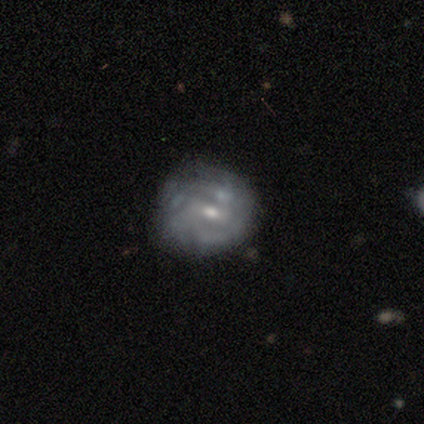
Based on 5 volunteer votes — Smooth or featured?
  - featured or disk: 60% *
  - smooth: 40%
  - star or artifact: 0%
Edge-on disk?
  - no: 100% *
  - yes: 0%
Bar?
  - weak: 67% *
  - strong: 33%
  - no: 0%
Spiral arms?
  - yes: 100% *
  - no: 0%
Spiral winding?
  - tight: 67% *
  - medium: 33%
  - loose: 0%
Spiral arm count?
  - can't tell: 67% *
  - 3: 33%
  - 1: 0%
  - 2: 0%
  - 4: 0%
  - more than 4: 0%
Bulge size?
  - small: 100% *
  - dominant: 0%
  - large: 0%
  - moderate: 0%
  - none: 0%
Merging?
  - none: 60% *
  - merger: 40%
  - minor disturbance: 0%
  - major disturbance: 0%